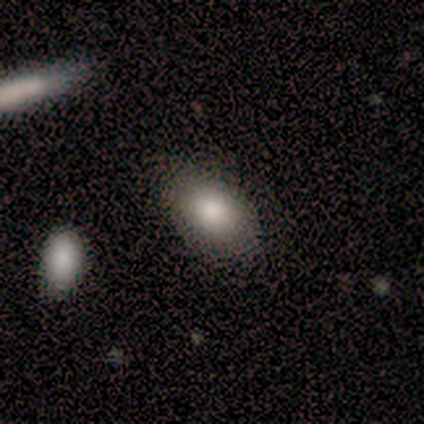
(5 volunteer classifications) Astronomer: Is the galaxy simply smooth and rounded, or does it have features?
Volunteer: smooth — 80%.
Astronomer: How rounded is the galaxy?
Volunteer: in between — 100%.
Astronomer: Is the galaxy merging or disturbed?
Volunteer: none — 80%.